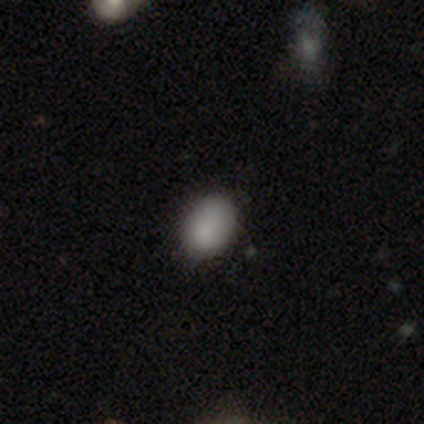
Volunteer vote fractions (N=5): Smooth or featured: smooth — 100%
How rounded: round — 60% (in between — 40%)
Merging: none — 80% (minor disturbance — 20%)